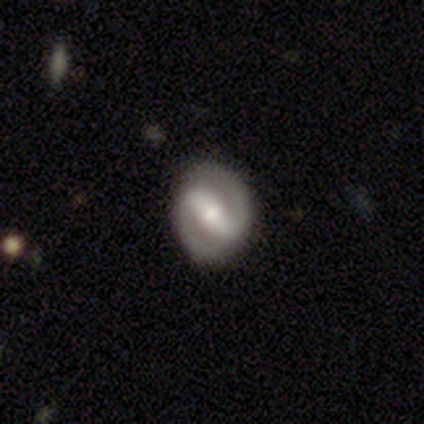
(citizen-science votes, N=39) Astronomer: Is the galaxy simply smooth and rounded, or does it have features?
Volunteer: featured or disk — 85%.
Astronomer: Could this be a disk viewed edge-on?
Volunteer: no — 100%.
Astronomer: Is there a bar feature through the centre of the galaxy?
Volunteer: strong — 73%.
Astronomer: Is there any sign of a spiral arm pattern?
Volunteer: yes — 91%.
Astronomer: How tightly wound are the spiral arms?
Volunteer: tight — 50%, tied with medium at 50%.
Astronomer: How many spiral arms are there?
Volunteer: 2 — 100%.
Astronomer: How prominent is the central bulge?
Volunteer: moderate — 64%.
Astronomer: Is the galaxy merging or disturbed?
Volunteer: none — 82%.